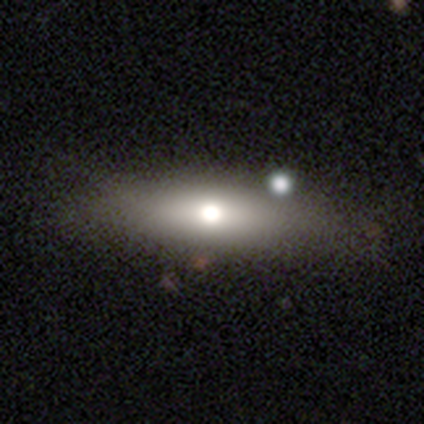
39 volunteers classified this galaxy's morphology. Smooth or featured? smooth (56%)
How rounded? in between (68%)
Merging? none (70%)